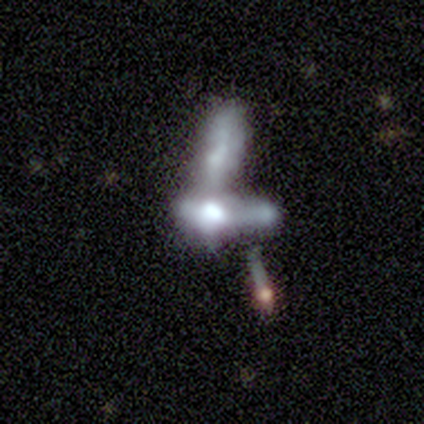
featured or disk 60%, star or artifact 40%, smooth 0%. Down the decision tree: edge-on disk — no (100%); bar — no (100%); spiral arms — no (100%); bulge size — moderate (33%, tied with small and none); merging — merger (67%).